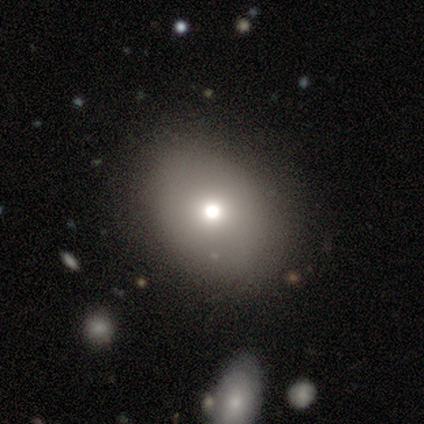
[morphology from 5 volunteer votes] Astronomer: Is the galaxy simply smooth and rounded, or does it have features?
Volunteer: smooth — 80%.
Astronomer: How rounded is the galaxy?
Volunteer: round — 50%, tied with in between at 50%.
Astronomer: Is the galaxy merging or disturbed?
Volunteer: none — 80%.